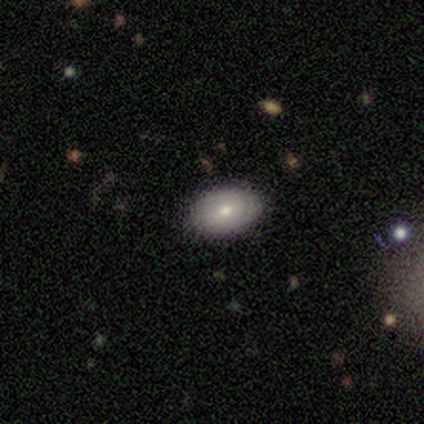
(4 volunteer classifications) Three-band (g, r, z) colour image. It shows a smooth galaxy with no disk features (75%) that is in between round and cigar-shaped (100%). Merging: none (100%).